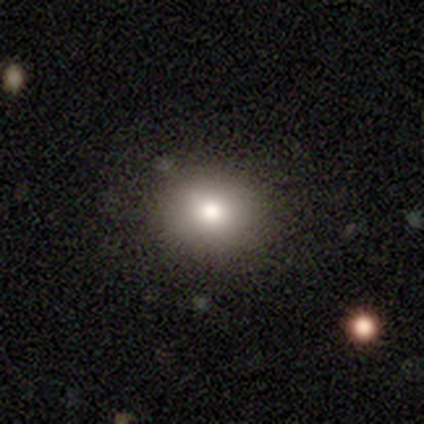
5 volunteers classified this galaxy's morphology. A smooth galaxy with no disk features (100%) that is round (80%). Merging: none (100%).